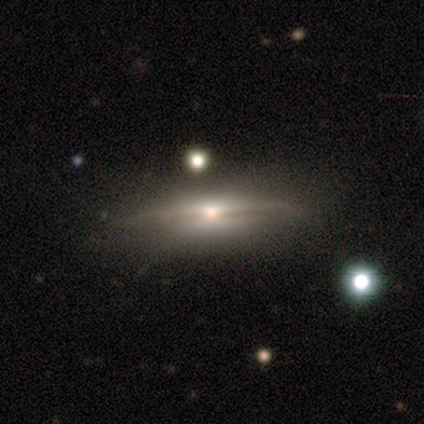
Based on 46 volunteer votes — This is clearly a featured or disk galaxy (80%). It is clearly viewed edge-on (89%). Edge-on bulge: likely rounded (64%). Merging: likely none (76%).